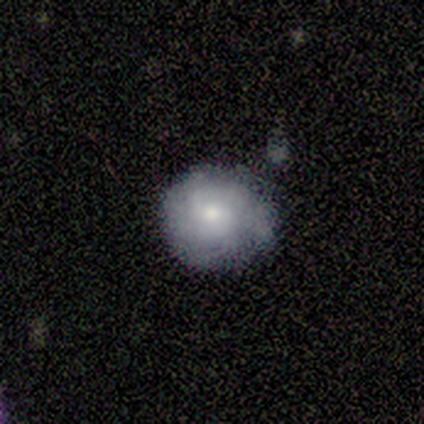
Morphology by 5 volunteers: smooth_or_featured: smooth (p=0.60) [alt: featured or disk p=0.40]
how_rounded: round (p=1.00)
merging: none (p=0.60) [alt: minor disturbance p=0.40]